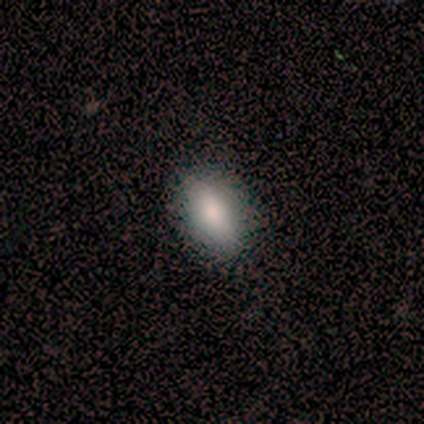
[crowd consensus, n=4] Overall: smooth (100%). How rounded: in between (100%). Merging: none (100%).